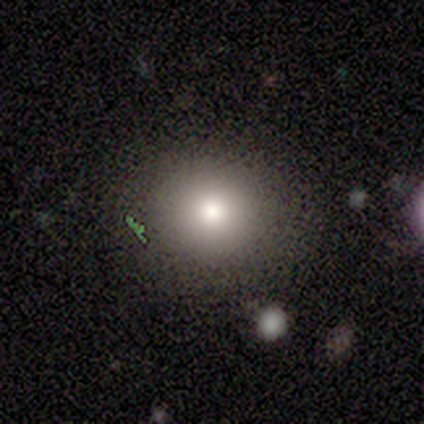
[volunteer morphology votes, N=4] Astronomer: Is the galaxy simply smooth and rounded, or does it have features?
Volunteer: smooth — 75%.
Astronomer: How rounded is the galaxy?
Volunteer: in between — 67%.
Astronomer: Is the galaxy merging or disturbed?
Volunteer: none — 75%.